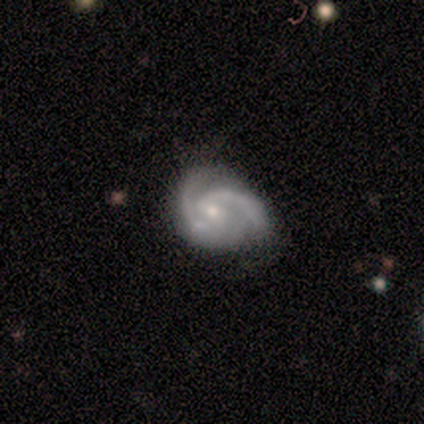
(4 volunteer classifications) featured or disk 50% (tied), star or artifact 50% (tied), smooth 0%. Down the decision tree: edge-on disk — no (100%); bar — weak (50%, tied with no); spiral arms — yes (100%); spiral arm count — 2 (100%); spiral winding — tight (50%, tied with medium); bulge size — moderate (50%, tied with small); merging — minor disturbance (100%).